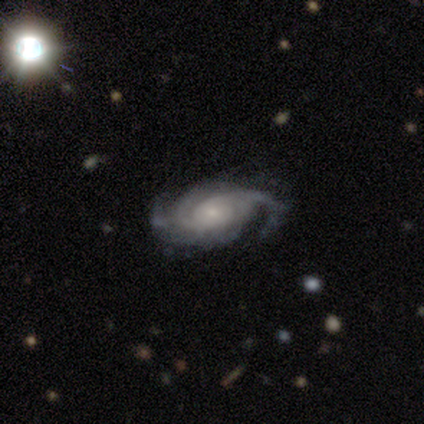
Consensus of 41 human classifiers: Smooth or featured? 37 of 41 (90%) said featured or disk. Edge-on disk? 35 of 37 (95%) said no. Bar? 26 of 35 (74%) said no. Spiral arms? 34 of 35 (97%) said yes. Spiral winding? 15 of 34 (44%) said tight. Spiral arm count? 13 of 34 (38%) said 3. Bulge size? 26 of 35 (74%) said small. Merging? 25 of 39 (64%) said none.